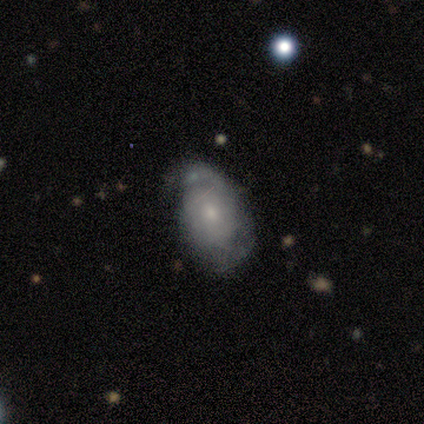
Overall: featured or disk (50%; smooth 25%). Edge-on disk: no (88%). Bar: no (100%). Spiral arms: yes (86%). Spiral arm count: can't tell (50%; 1 33%). Spiral winding: tight (50%; loose 33%). Bulge size: small (57%; moderate 29%). Merging: none (50%; minor disturbance 25%).